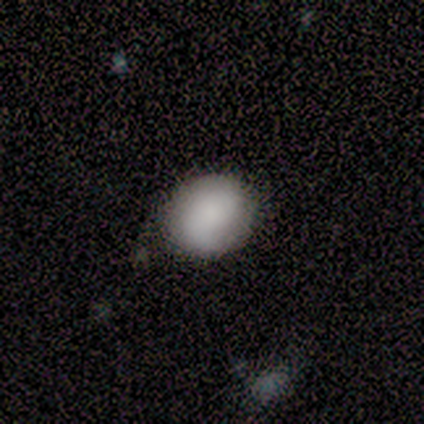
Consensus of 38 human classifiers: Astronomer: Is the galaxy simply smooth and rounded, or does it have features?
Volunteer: smooth — 63%.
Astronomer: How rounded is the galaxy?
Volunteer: round — 67%.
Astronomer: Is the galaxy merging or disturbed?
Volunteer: none — 78%.